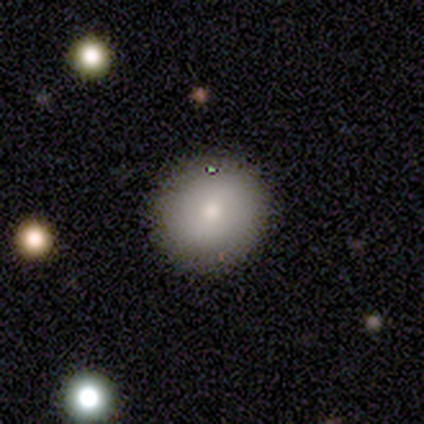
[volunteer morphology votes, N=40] type=smooth (72%); roundness=round (93%); merging=none (81%).